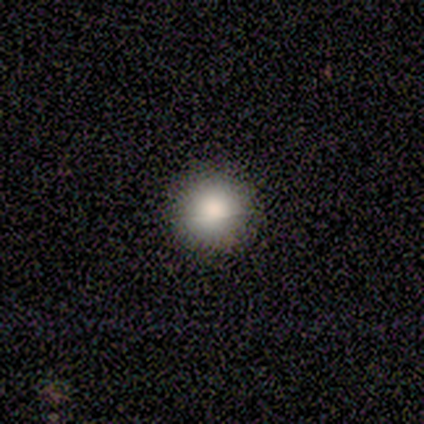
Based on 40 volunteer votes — A smooth galaxy with no disk features (82%) that is round (100%).

Vote fractions:
- Smooth or featured? smooth: 82% / featured or disk: 15% / star or artifact: 2%
- How rounded? round: 100% / in between: 0% / cigar-shaped: 0%
- Merging? none: 51% / minor disturbance: 3% / major disturbance: 3% / merger: 0%